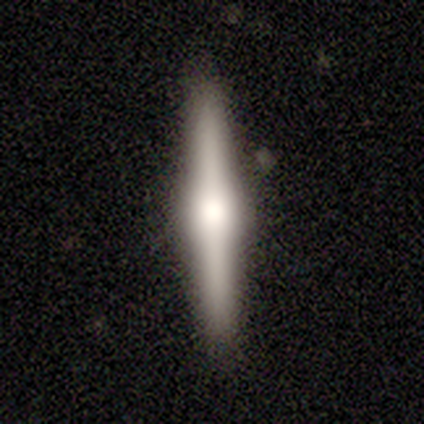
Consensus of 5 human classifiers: Q: Smooth or featured?
A: featured or disk (80%); runner-up: star or artifact (20%)
Q: Edge-on disk?
A: yes (100%)
Q: Edge-on bulge?
A: rounded (100%)
Q: Merging?
A: none (100%)